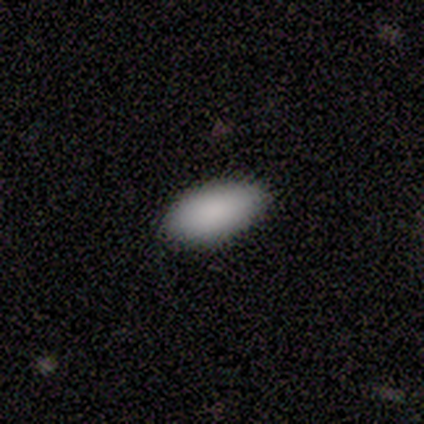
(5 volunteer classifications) smooth_or_featured: smooth (p=0.80) [alt: star or artifact p=0.20]
how_rounded: in between (p=1.00)
merging: none (p=0.75) [alt: minor disturbance p=0.25]